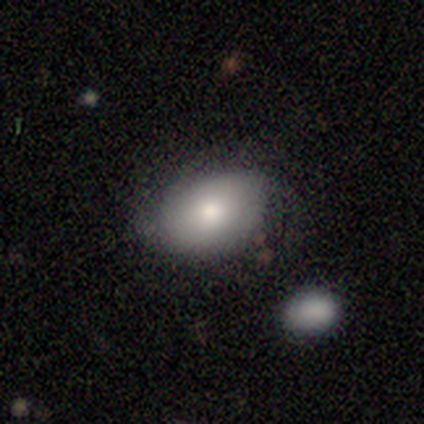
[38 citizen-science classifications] Volunteers were most divided on "merging": none: 68%, minor disturbance: 22%, major disturbance: 11%, merger: 0%. More confident: how rounded — in between (91%); smooth or featured — smooth (84%).